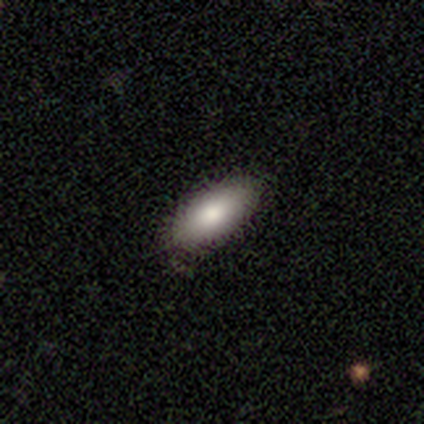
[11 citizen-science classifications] A smooth galaxy with no disk features (82%) that is in between round and cigar-shaped (100%). Merging: none (82%).